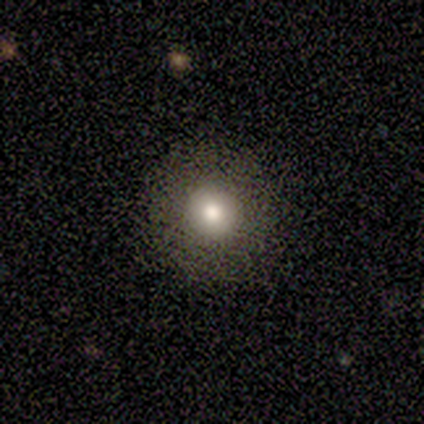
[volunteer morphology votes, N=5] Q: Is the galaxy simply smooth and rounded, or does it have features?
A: smooth — 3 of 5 (60%).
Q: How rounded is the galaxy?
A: round — 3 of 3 (100%).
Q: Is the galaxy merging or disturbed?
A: none — 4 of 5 (80%).